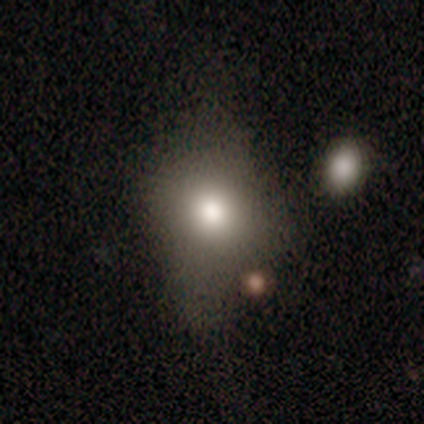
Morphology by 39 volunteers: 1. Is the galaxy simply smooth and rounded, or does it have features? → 72% smooth, 18% featured or disk, 10% star or artifact.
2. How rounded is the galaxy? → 61% in between, 39% round, 0% cigar-shaped.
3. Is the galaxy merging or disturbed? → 57% none, 23% minor disturbance, 17% major disturbance, 3% merger.